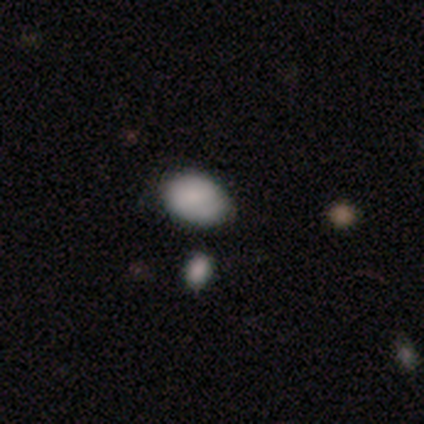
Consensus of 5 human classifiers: Smooth or featured? smooth (100%)
How rounded? in between (80%)
Merging? none (100%)